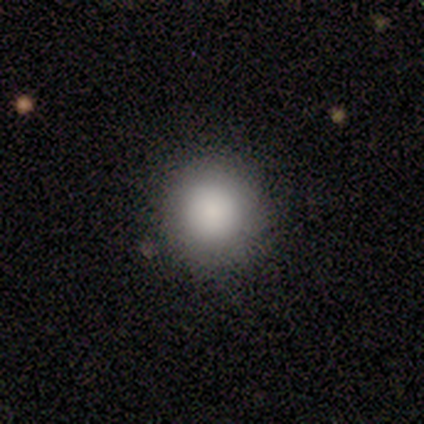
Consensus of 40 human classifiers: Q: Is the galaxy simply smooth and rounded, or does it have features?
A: smooth — 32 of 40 (80%).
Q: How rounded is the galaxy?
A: round — 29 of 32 (91%).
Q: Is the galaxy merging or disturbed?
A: none — 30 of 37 (81%).